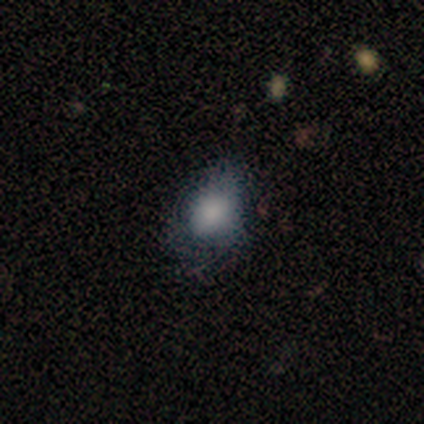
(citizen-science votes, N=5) A smooth galaxy with no disk features (100%) that is in between round and cigar-shaped (60%).

Vote fractions:
- Smooth or featured? smooth: 100% / featured or disk: 0% / star or artifact: 0%
- How rounded? in between: 60% / round: 40% / cigar-shaped: 0%
- Merging? none: 60% / minor disturbance: 40% / major disturbance: 0% / merger: 0%